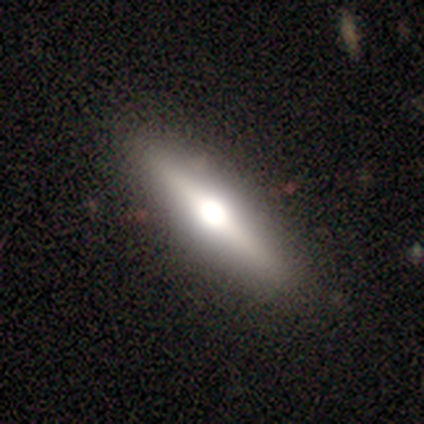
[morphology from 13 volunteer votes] This appears to be a featured or disk galaxy (77%) viewed edge-on (100%) with a rounded central bulge (100%). Merging: none (83%).